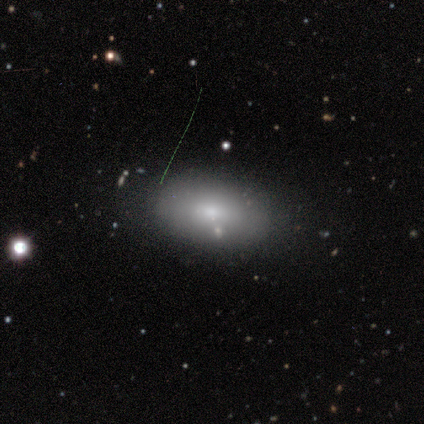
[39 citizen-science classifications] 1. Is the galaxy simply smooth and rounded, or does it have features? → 69% smooth, 26% featured or disk, 5% star or artifact.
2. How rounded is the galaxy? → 96% in between, 4% round, 0% cigar-shaped.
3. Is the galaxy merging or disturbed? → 68% none, 22% minor disturbance, 8% merger, 3% major disturbance.